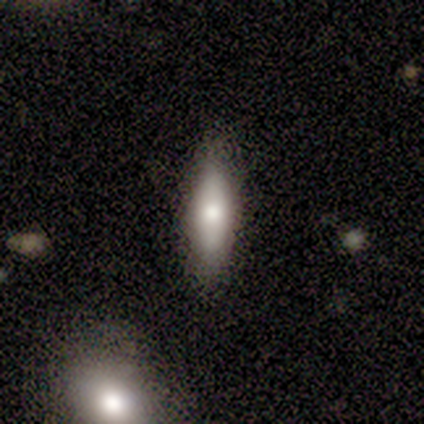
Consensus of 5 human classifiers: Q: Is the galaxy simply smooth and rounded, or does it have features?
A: smooth — 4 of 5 (80%).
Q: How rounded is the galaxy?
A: in between — 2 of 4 (50%, tied with cigar-shaped).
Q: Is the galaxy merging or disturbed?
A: none — 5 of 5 (100%).